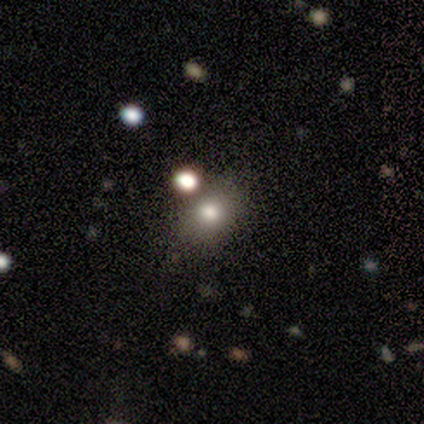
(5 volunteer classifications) Q: Smooth or featured?
A: smooth (60%); runner-up: featured or disk (40%)
Q: How rounded?
A: in between (67%); runner-up: round (33%)
Q: Merging?
A: none (40%); tied with: merger (40%)